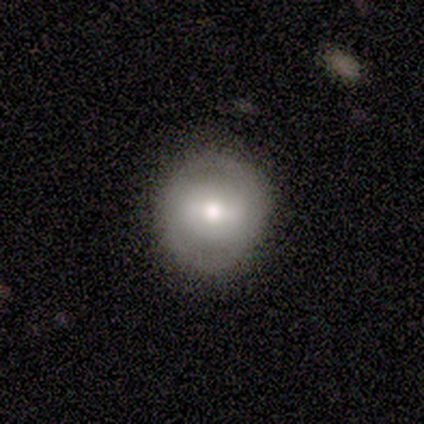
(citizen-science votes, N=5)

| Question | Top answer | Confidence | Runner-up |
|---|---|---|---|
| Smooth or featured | featured or disk | 60% | smooth (40%) |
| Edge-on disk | no | 100% | — |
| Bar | weak | 67% | strong (33%) |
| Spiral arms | yes | 100% | — |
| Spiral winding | tight | 67% | loose (33%) |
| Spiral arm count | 2 | 100% | — |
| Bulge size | moderate | 100% | — |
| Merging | none | 100% | — |